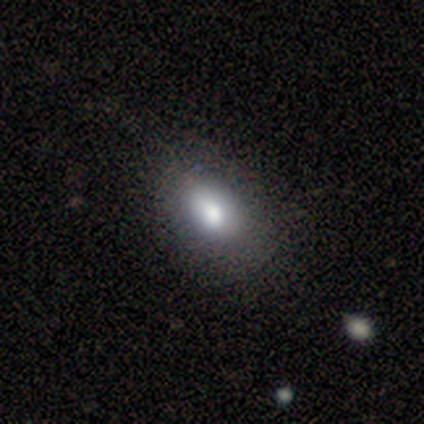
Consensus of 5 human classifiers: Smooth or featured: smooth — 100%
How rounded: in between — 100%
Merging: none — 80% (minor disturbance — 20%)